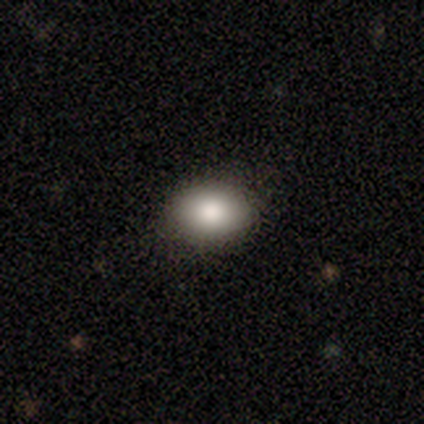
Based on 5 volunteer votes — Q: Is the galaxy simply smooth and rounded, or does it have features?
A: smooth — 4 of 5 (80%).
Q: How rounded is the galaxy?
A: in between — 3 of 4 (75%).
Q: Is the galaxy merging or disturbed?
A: none — 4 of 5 (80%).